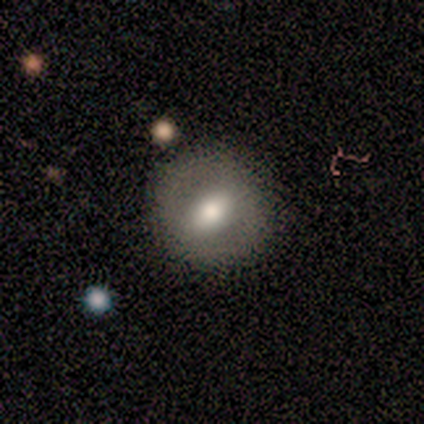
Smooth or featured? 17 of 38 (45%) said smooth. How rounded? 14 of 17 (82%) said round. Merging? 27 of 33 (82%) said none.